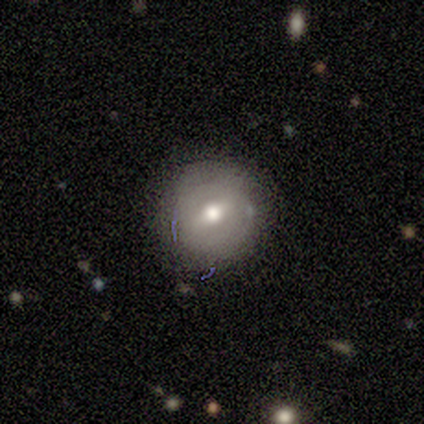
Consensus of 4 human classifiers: A smooth galaxy with no disk features (75%) that is round (100%).

Vote fractions:
- Smooth or featured? smooth: 75% / featured or disk: 25% / star or artifact: 0%
- How rounded? round: 100% / in between: 0% / cigar-shaped: 0%
- Merging? none: 100% / minor disturbance: 0% / major disturbance: 0% / merger: 0%